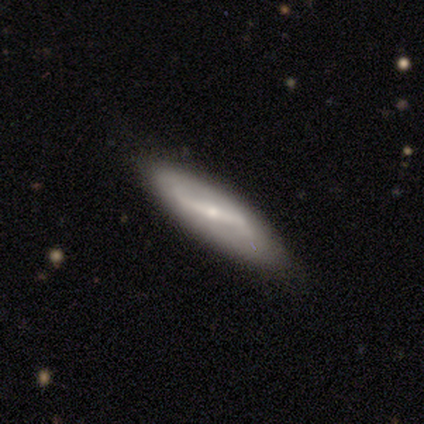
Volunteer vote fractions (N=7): featured or disk 86%, smooth 14%, star or artifact 0%. Down the decision tree: edge-on disk — no (83%); bar — strong (60%); spiral arms — yes (60%); spiral arm count — 2 (100%); spiral winding — loose (67%); bulge size — small (80%); merging — none (86%).